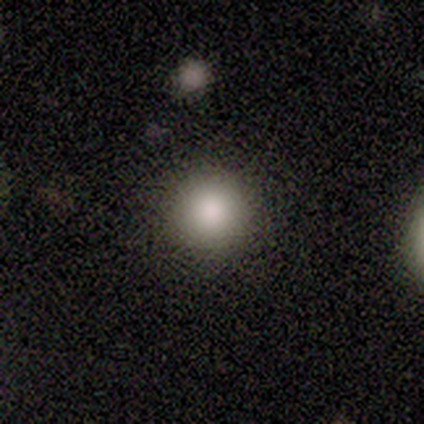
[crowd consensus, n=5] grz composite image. It shows a smooth galaxy with no disk features (100%) that is round (100%). Merging: none (80%).